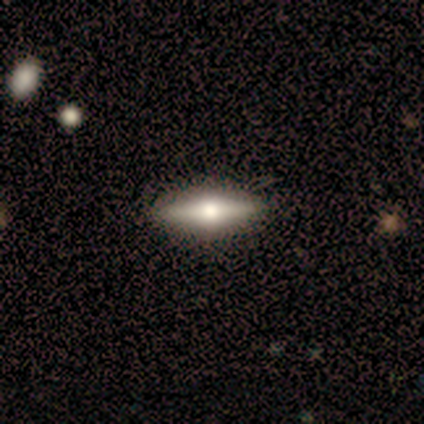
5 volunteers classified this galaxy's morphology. This is likely a smooth galaxy (60%). How rounded: likely in between (67%). Merging: clearly none (80%).